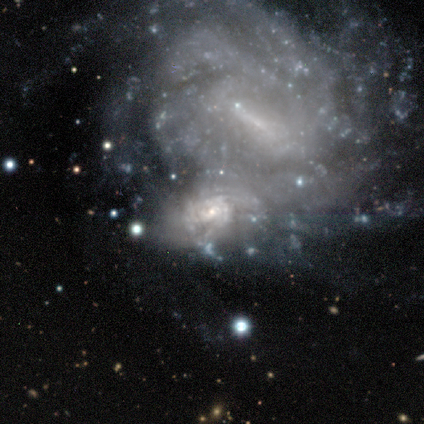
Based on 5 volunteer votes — A featured or disk galaxy (100%) with no bar (60%), tight (100%) spiral arms (100%) and a small central bulge (100%). Merging: merger (60%).